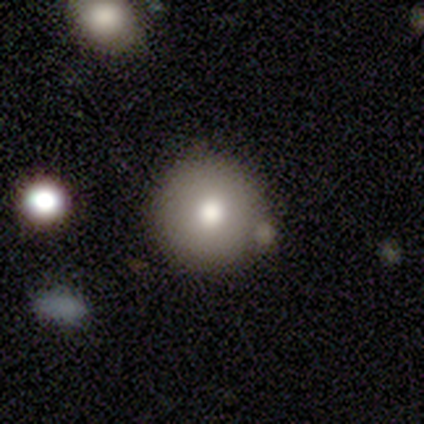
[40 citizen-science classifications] Smooth or featured: smooth — 60% (featured or disk — 20%)
How rounded: round — 96% (in between — 4%)
Merging: none — 62% (minor disturbance — 22%)